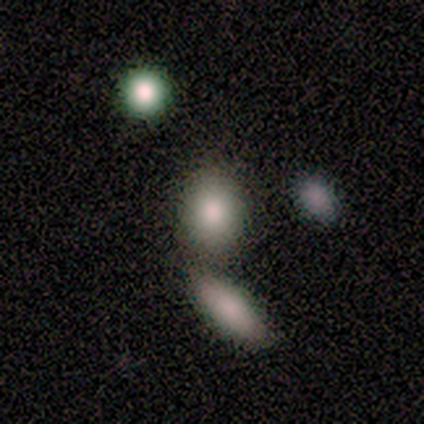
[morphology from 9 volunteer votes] type=smooth (100%); roundness=round (56%); merging=none (56%).